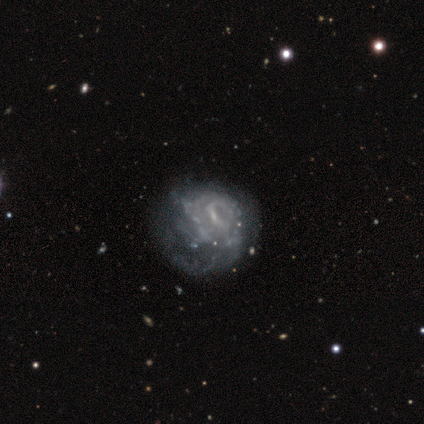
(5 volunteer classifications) This appears to be a featured or disk galaxy (100%) with a weak bar (80%), 2 (50%) medium (75%) spiral arms (80%) and a small central bulge (40%, tied with none). Merging: minor disturbance (40%, tied with major disturbance).